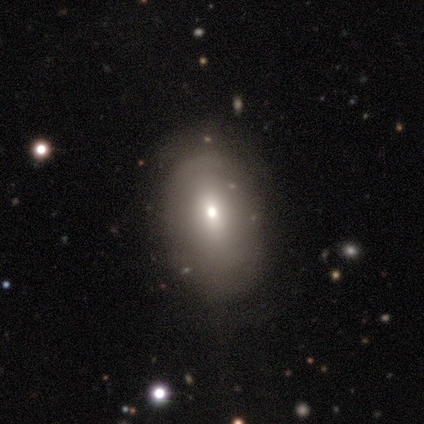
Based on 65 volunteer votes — smooth_or_featured: smooth (p=0.83) [alt: featured or disk p=0.11]
how_rounded: in between (p=0.87) [alt: round p=0.11]
merging: none (p=0.36) [alt: minor disturbance p=0.23]